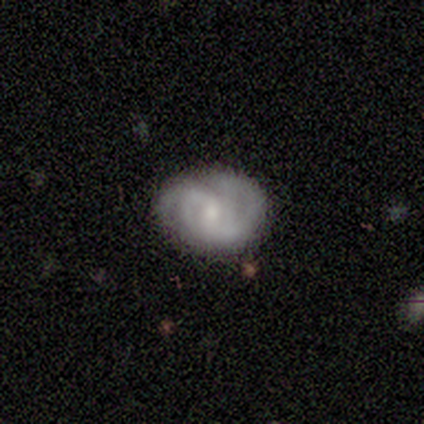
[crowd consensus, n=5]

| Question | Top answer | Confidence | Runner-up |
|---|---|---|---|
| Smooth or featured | featured or disk | 100% | — |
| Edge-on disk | no | 100% | — |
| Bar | weak | 60% | strong (20%) |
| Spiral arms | yes | 100% | — |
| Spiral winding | tight | 40% | tied: loose (40%) |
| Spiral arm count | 2 | 80% | can't tell (20%) |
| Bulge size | small | 60% | moderate (40%) |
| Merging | none | 100% | — |